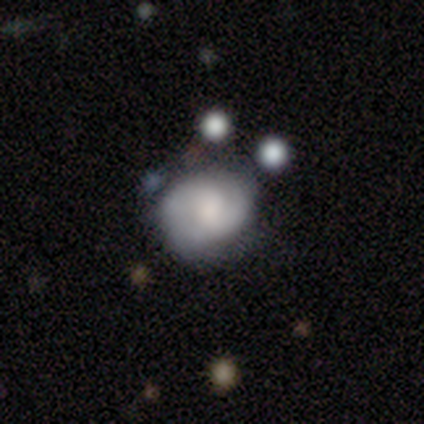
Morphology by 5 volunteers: Volunteers were most divided on "smooth or featured": smooth: 60%, featured or disk: 20%, star or artifact: 20%. More confident: how rounded — round (100%); merging — none (75%).